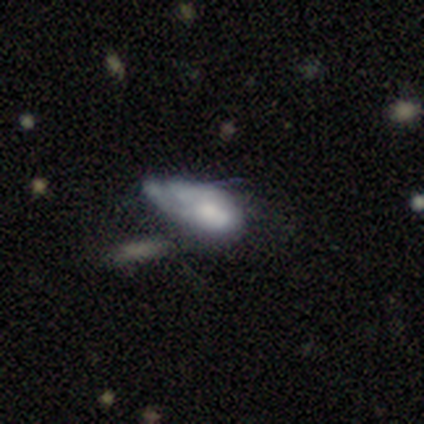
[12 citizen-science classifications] A featured or disk galaxy (67%) with no bar (62%), no spiral arms (75%) and a moderate central bulge (50%).

Vote fractions:
- Smooth or featured? featured or disk: 67% / smooth: 33% / star or artifact: 0%
- Edge-on disk? no: 100% / yes: 0%
- Bar? no: 62% / weak: 25% / strong: 12%
- Spiral arms? no: 75% / yes: 25%
- Bulge size? moderate: 50% / none: 25% / dominant: 12% / small: 12% / large: 0%
- Merging? major disturbance: 50% / minor disturbance: 25% / none: 17% / merger: 8%